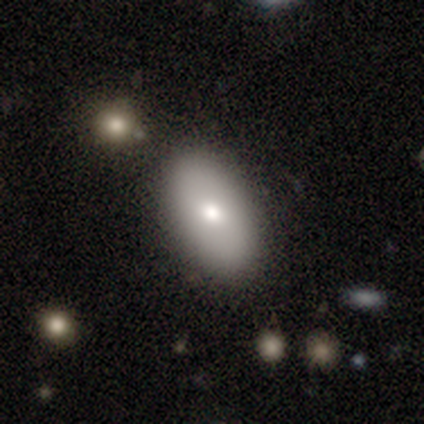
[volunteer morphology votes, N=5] Smooth or featured? featured or disk (80%)
Edge-on disk? no (100%)
Bar? no (75%)
Spiral arms? no (75%)
Bulge size? moderate (75%)
Merging? none (100%)